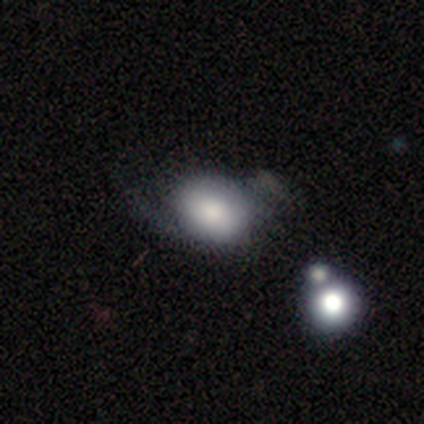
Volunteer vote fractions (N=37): Smooth or featured? 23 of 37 (62%) said smooth. How rounded? 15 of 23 (65%) said in between. Merging? 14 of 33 (42%) said minor disturbance.